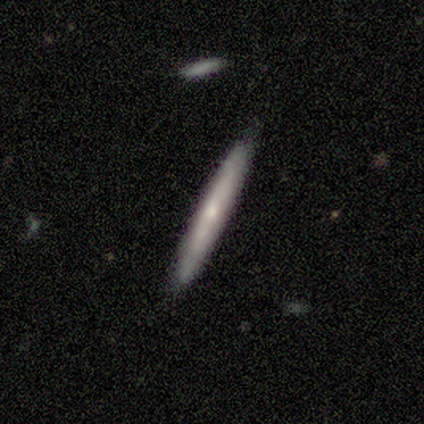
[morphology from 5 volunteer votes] Smooth or featured? smooth (60%)
How rounded? cigar-shaped (100%)
Merging? none (100%)